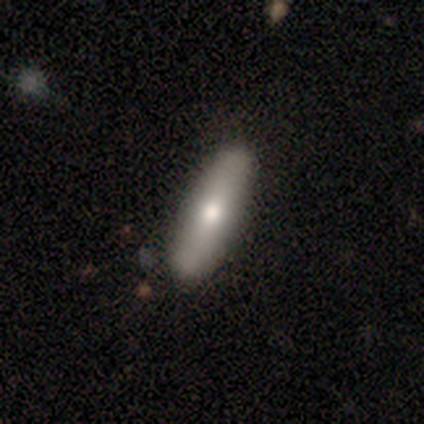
Smooth or featured: smooth — 80% (featured or disk — 20%)
How rounded: cigar-shaped — 100%
Merging: none — 80% (minor disturbance — 20%)